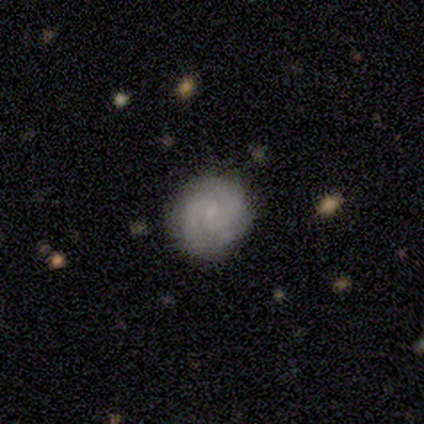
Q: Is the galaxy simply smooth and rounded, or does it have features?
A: featured or disk — 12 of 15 (80%).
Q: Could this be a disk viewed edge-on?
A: no — 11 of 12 (92%).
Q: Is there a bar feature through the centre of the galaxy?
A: no — 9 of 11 (82%).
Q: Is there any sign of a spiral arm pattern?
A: yes — 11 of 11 (100%).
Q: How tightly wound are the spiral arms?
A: tight — 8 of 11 (73%).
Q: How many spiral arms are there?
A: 2 — 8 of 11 (73%).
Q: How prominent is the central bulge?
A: small — 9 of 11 (82%).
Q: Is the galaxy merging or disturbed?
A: none — 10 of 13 (77%).